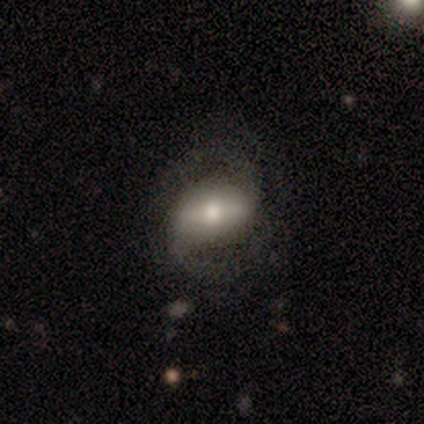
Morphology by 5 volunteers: This appears to be a featured or disk galaxy (80%) with a strong bar (67%), 2 (100%) medium (100%) spiral arms (100%) and a large central bulge (33%, tied with moderate and small). Merging: none (100%).